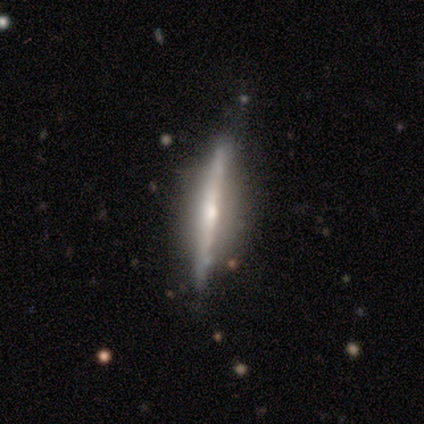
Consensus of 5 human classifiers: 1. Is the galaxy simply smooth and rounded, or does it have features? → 80% featured or disk, 20% smooth, 0% star or artifact.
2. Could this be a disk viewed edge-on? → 100% yes, 0% no.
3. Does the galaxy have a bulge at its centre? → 50% boxy, 25% none, 25% rounded.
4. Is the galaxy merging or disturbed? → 60% minor disturbance, 40% none, 0% major disturbance, 0% merger.